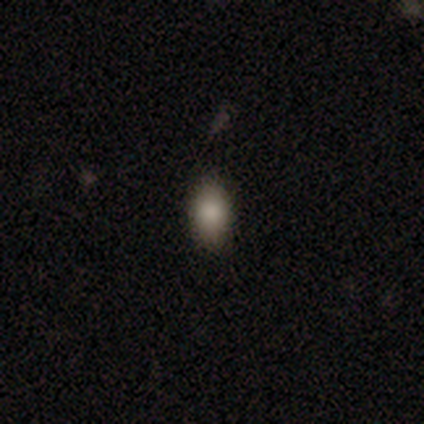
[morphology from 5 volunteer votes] A smooth galaxy with no disk features (100%) that is in between round and cigar-shaped (80%). Merging: none (80%).